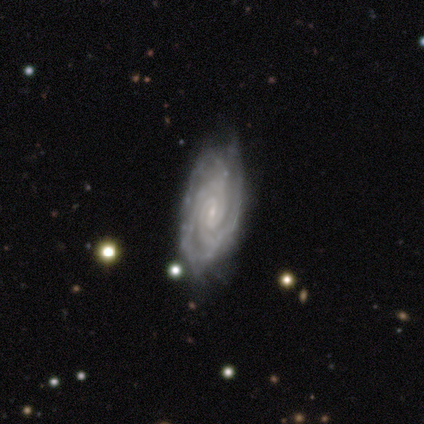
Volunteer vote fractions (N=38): A featured or disk galaxy (100%) with a weak bar (57%), 3 (39%) tight (78%) spiral arms (97%) and a small central bulge (89%).

Vote fractions:
- Smooth or featured? featured or disk: 100% / smooth: 0% / star or artifact: 0%
- Edge-on disk? no: 97% / yes: 3%
- Bar? weak: 57% / no: 30% / strong: 14%
- Spiral arms? yes: 97% / no: 3%
- Spiral winding? tight: 78% / medium: 17% / loose: 6%
- Spiral arm count? 3: 39% / 2: 28% / can't tell: 19% / 4: 11% / more than 4: 3% / 1: 0%
- Bulge size? small: 89% / moderate: 5% / none: 5% / dominant: 0% / large: 0%
- Merging? none: 71% / minor disturbance: 18% / major disturbance: 8% / merger: 3%